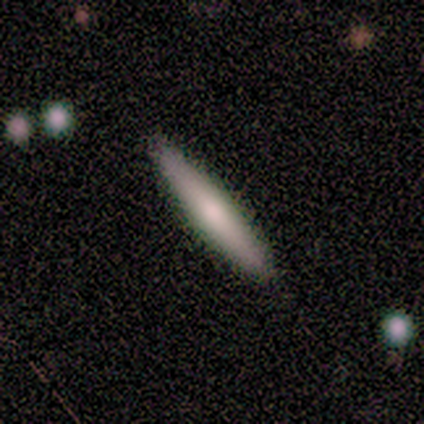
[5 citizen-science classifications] Volunteers were most divided on "smooth or featured": featured or disk: 60%, smooth: 40%, star or artifact: 0%. More confident: edge-on bulge — none (100%); merging — none (80%); edge-on disk — yes (67%).